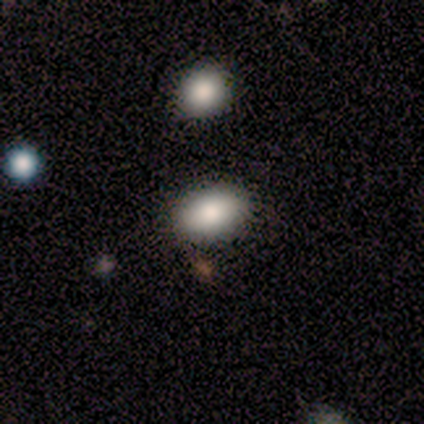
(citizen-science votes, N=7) smooth 100%, featured or disk 0%, star or artifact 0%. Down the decision tree: how rounded — in between (100%); merging — none (86%).